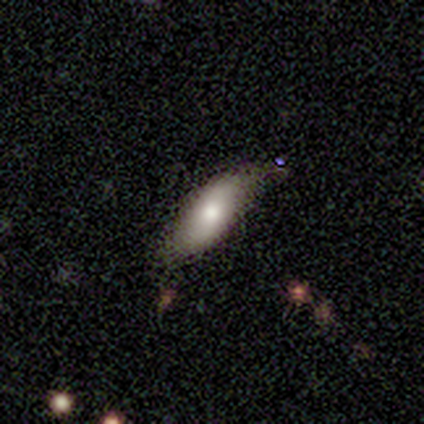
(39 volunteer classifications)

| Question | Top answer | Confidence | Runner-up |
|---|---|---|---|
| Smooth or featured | smooth | 64% | featured or disk (31%) |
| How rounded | in between | 80% | cigar-shaped (20%) |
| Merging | none | 73% | minor disturbance (22%) |